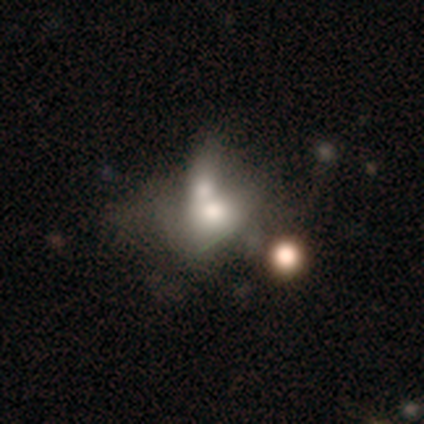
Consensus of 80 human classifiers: Smooth or featured? 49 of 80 (61%) said smooth. How rounded? 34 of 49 (69%) said in between. Merging? 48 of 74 (65%) said merger.